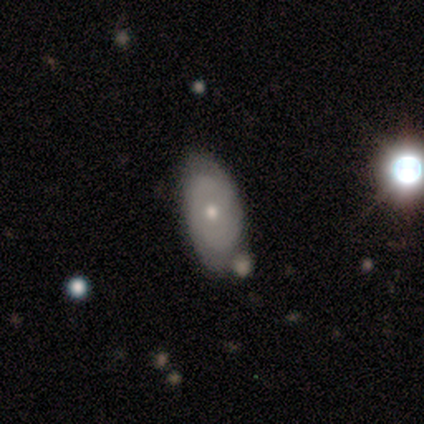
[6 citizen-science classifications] This is possibly a smooth galaxy (50%, tied with featured or disk). How rounded: clearly in between (100%). Merging: marginally none (33%, tied with minor disturbance and merger).